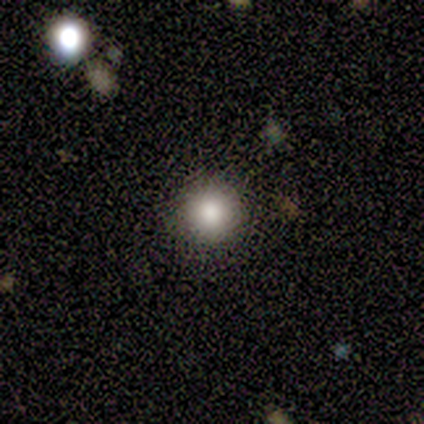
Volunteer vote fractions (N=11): smooth 82%, featured or disk 9%, star or artifact 9%. Down the decision tree: how rounded — round (100%); merging — none (90%).